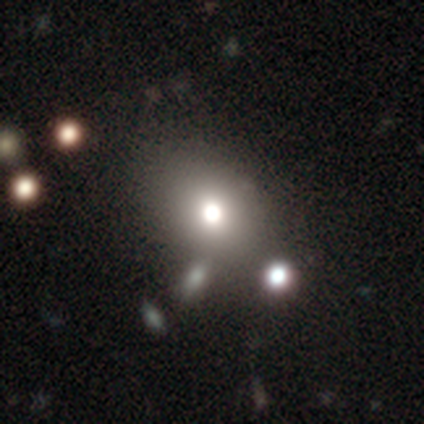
Volunteers were most divided on "how rounded" (2-way tie): round: 46%, in between: 46%, cigar-shaped: 8%. More confident: merging — none (86%); smooth or featured — smooth (81%).